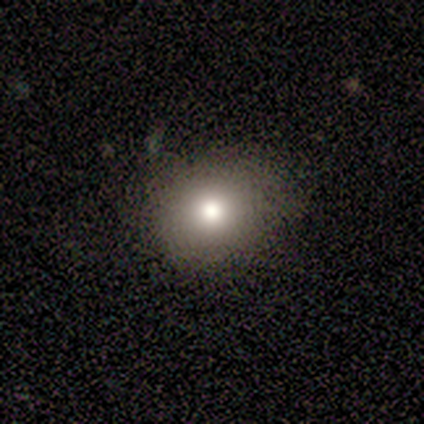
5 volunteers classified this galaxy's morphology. type=smooth (100%); roundness=round (80%); merging=none (100%).